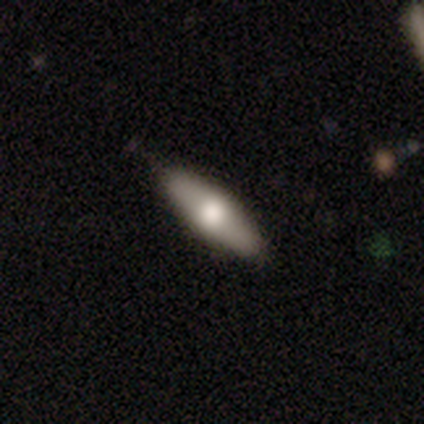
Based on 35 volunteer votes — smooth 66%, featured or disk 31%, star or artifact 3%. Down the decision tree: how rounded — cigar-shaped (61%); merging — none (94%).